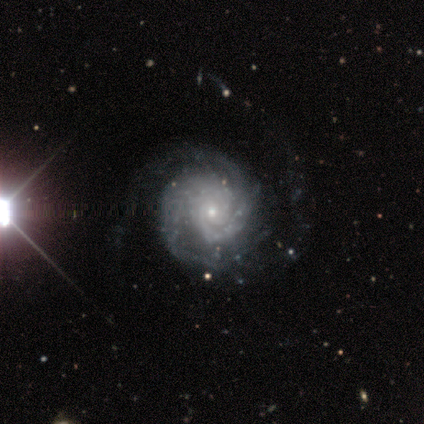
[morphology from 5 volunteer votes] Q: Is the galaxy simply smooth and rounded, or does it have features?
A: featured or disk — 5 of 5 (100%).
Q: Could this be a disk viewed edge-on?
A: no — 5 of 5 (100%).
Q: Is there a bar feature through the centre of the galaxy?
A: no — 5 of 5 (100%).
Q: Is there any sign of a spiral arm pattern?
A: yes — 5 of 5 (100%).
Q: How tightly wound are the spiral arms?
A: medium — 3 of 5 (60%).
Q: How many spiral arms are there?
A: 3 — 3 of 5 (60%).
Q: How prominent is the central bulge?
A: small — 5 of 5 (100%).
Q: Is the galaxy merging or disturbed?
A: none — 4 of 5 (80%).